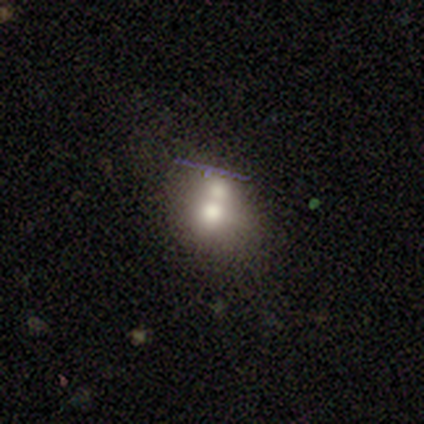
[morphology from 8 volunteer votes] type=smooth (75%); roundness=round (67%); merging=merger (71%).